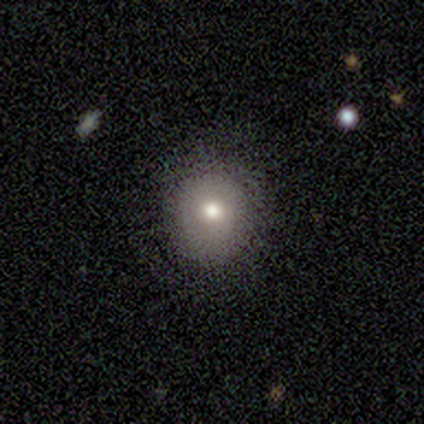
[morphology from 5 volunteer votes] smooth-or-featured: smooth: 80% | star or artifact: 20% | featured or disk: 0%
  how-rounded: round: 75% | in between: 25% | cigar-shaped: 0%
  merging: none: 100% | minor disturbance: 0% | major disturbance: 0% | merger: 0%